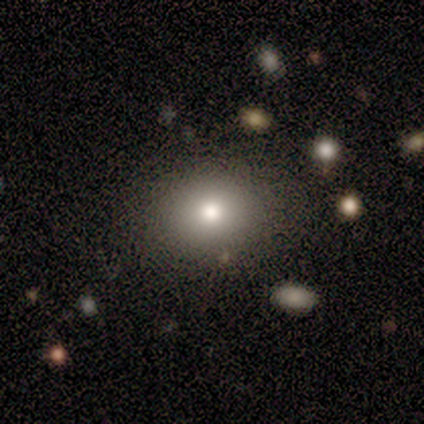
A featured or disk galaxy (40%, tied with star or artifact) with no bar (100%), no spiral arms (100%) and a large central bulge (50%, tied with moderate). Merging: none (100%).